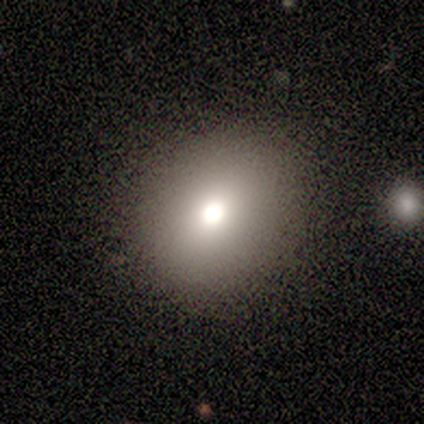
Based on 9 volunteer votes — This appears to be a smooth galaxy with no disk features (78%) that is round (86%). Merging: none (100%).